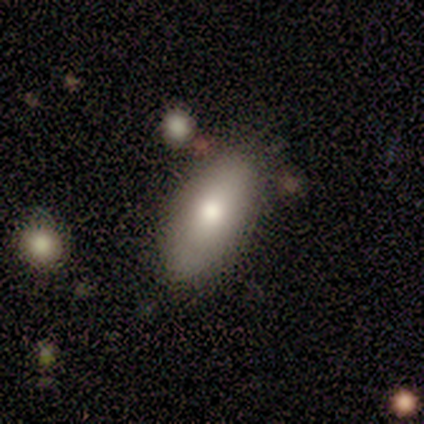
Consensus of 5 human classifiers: Q: Smooth or featured?
A: smooth (80%); runner-up: star or artifact (20%)
Q: How rounded?
A: in between (100%)
Q: Merging?
A: none (50%); tied with: minor disturbance (50%)